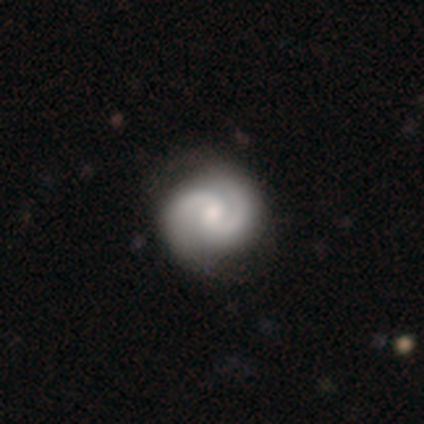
Smooth or featured: featured or disk — 60% (smooth — 40%)
Edge-on disk: no — 100%
Bar: no — 67% (weak — 33%)
Spiral arms: yes — 100%
Spiral winding: medium — 67% (tight — 33%)
Spiral arm count: 2 — 100%
Bulge size: moderate — 100%
Merging: none — 100%